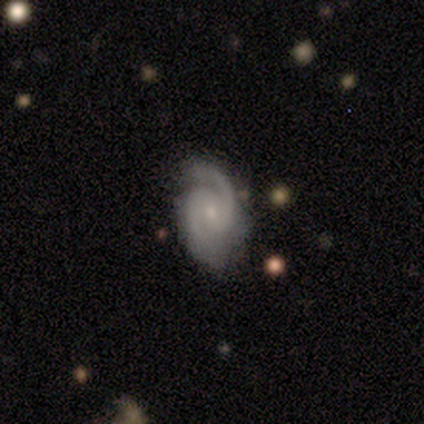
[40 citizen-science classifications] This is clearly a featured or disk galaxy (95%). It is clearly not viewed edge-on (95%). Bar: marginally weak (44%). Spiral arm pattern: clearly yes (97%). Spiral arm count: clearly 2 (94%). Spiral winding: possibly medium (54%). Central bulge: likely small (69%). Merging: likely none (79%).